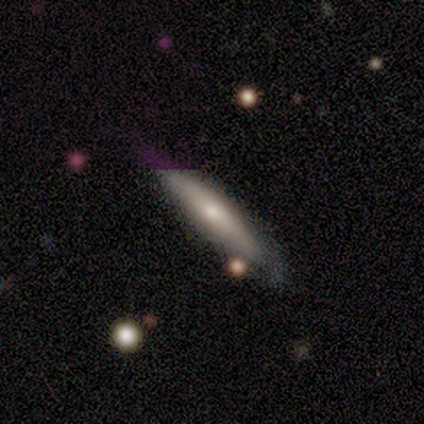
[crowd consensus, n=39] Q: Smooth or featured?
A: smooth (46%); runner-up: featured or disk (38%)
Q: How rounded?
A: cigar-shaped (78%); runner-up: in between (22%)
Q: Merging?
A: none (67%); runner-up: minor disturbance (24%)